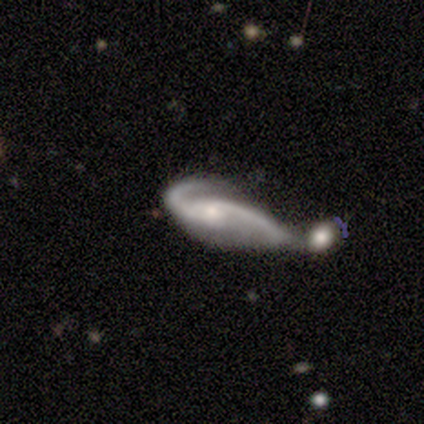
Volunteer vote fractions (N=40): Morphology: type=featured or disk (90%); edge-on=no (86%); bar=weak (45%, tied with no); spiral arms=yes (97%); winding=loose (70%); arm count=2 (100%); bulge=small (55%); merging=merger (54%).